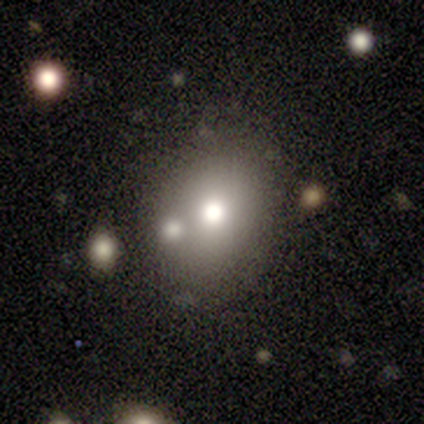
Overall: smooth (80%). How rounded: in between (100%). Merging: minor disturbance (50%; none 25%).